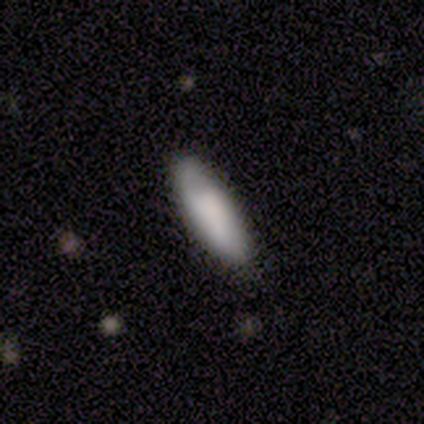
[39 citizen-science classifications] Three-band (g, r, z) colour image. It shows a smooth galaxy with no disk features (64%) that is in between round and cigar-shaped (64%). Merging: none (86%).